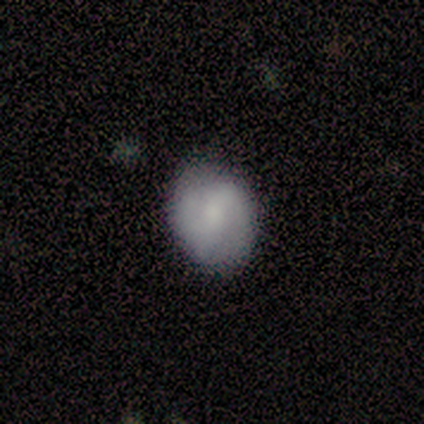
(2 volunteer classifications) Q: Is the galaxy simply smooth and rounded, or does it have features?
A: smooth — 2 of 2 (100%).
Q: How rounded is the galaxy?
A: round — 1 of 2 (50%, tied with in between).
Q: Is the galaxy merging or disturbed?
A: none — 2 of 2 (100%).